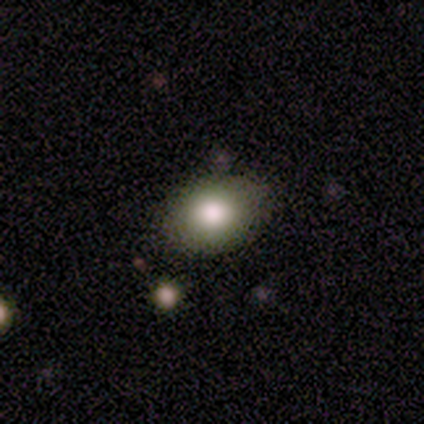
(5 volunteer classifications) A smooth galaxy with no disk features (100%) that is round (60%). Merging: none (100%).